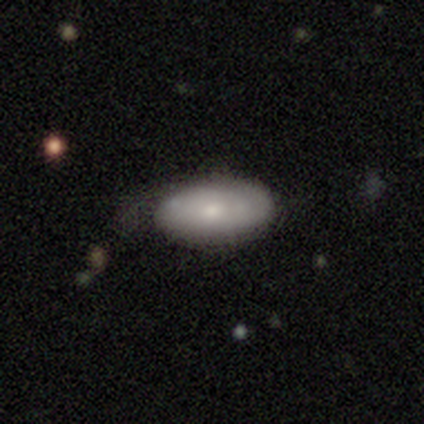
This is likely a smooth galaxy (63%). How rounded: clearly in between (96%). Merging: likely none (62%).